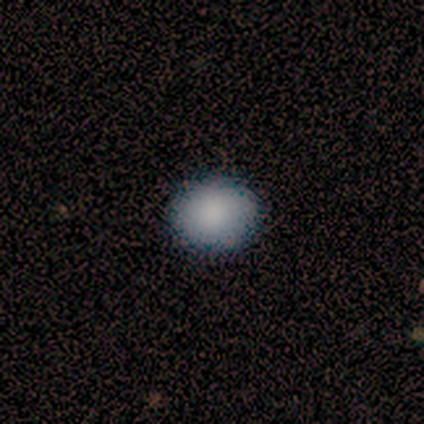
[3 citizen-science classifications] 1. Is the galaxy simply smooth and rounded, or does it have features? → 100% smooth, 0% featured or disk, 0% star or artifact.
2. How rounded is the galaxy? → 100% round, 0% in between, 0% cigar-shaped.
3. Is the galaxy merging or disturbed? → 100% none, 0% minor disturbance, 0% major disturbance, 0% merger.